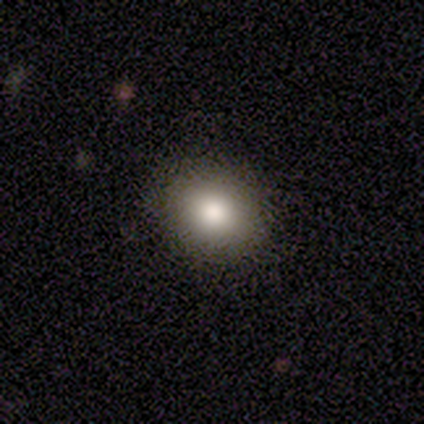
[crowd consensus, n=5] Smooth or featured? 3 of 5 (60%) said smooth. How rounded? 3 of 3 (100%) said round. Merging? 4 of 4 (100%) said none.